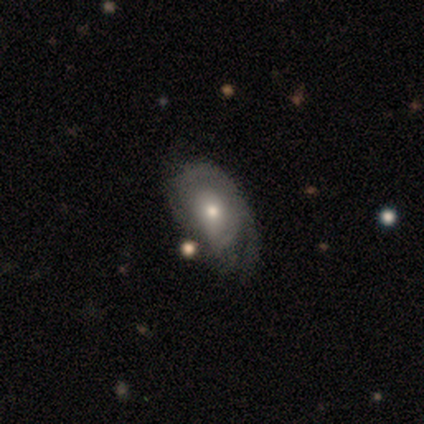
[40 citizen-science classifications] Volunteers were most divided on "spiral arm count": can't tell: 50%, 1: 42%, 2: 8%, 3: 0%, 4: 0%, more than 4: 0%. Remaining: bar — no (95%); edge-on disk — no (87%); bulge size — moderate (65%); spiral arms — yes (60%); spiral winding — tight (58%); smooth or featured — featured or disk (57%); merging — none (49%).